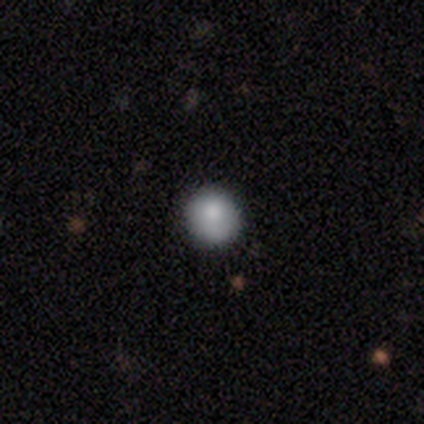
smooth_or_featured: smooth (p=1.00)
how_rounded: round (p=1.00)
merging: none (p=0.80) [alt: minor disturbance p=0.20]